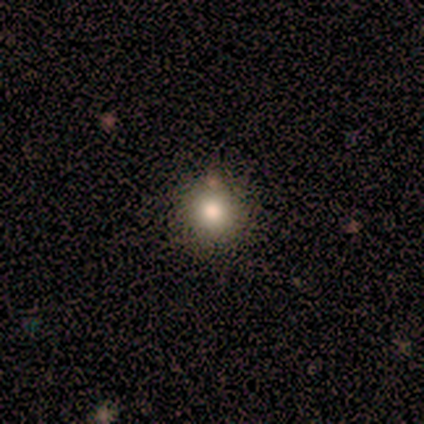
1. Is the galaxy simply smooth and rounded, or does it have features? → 87% smooth, 8% star or artifact, 5% featured or disk.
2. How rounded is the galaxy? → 97% round, 3% in between, 0% cigar-shaped.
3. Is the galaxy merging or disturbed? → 91% none, 3% minor disturbance, 3% major disturbance, 3% merger.